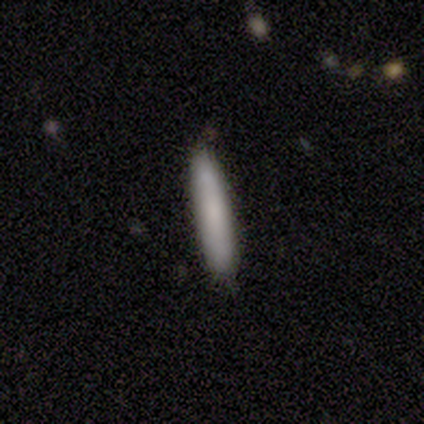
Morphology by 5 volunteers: smooth_or_featured: smooth (p=0.80) [alt: featured or disk p=0.20]
how_rounded: cigar-shaped (p=1.00)
merging: none (p=0.60) [alt: minor disturbance p=0.40]